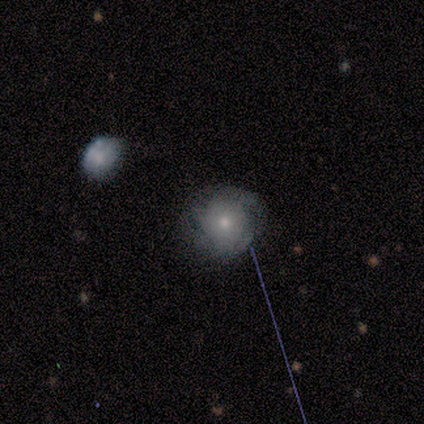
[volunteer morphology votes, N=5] smooth_or_featured: smooth (p=0.40) [tied with: featured or disk p=0.40]
how_rounded: round (p=1.00)
merging: none (p=0.50) [tied with: major disturbance p=0.50]